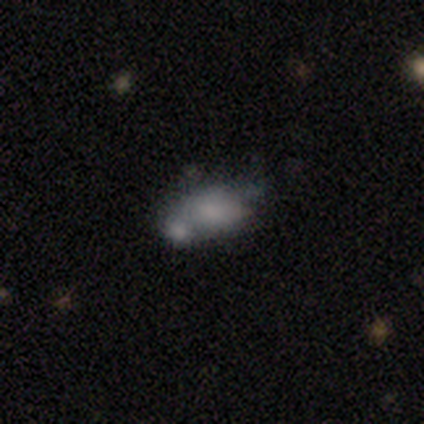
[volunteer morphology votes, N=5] Smooth or featured? 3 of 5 (60%) said smooth. How rounded? 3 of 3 (100%) said in between. Merging? 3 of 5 (60%) said merger.